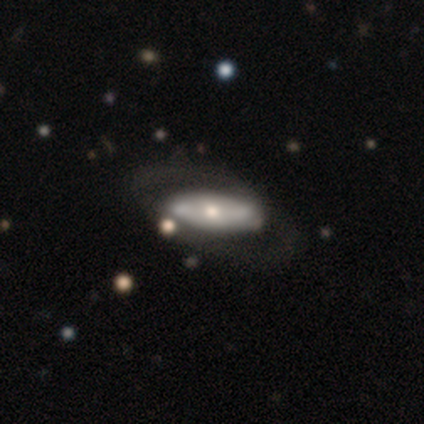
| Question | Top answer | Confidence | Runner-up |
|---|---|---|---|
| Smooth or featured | featured or disk | 67% | smooth (31%) |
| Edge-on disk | no | 62% | yes (38%) |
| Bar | no | 62% | strong (25%) |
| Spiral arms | no | 88% | yes (12%) |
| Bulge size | small | 56% | moderate (31%) |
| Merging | none | 53% | minor disturbance (21%) |